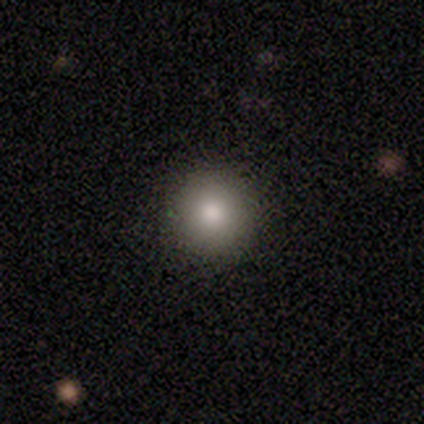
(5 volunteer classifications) Overall: smooth (80%). How rounded: round (100%). Merging: none (75%).